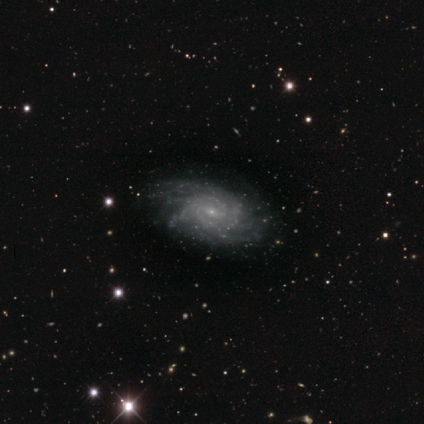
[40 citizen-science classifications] Smooth or featured? featured or disk (92%)
Edge-on disk? no (100%)
Bar? no (51%)
Spiral arms? yes (97%)
Spiral winding? tight (61%)
Spiral arm count? more than 4 (42%)
Bulge size? small (86%)
Merging? none (59%)